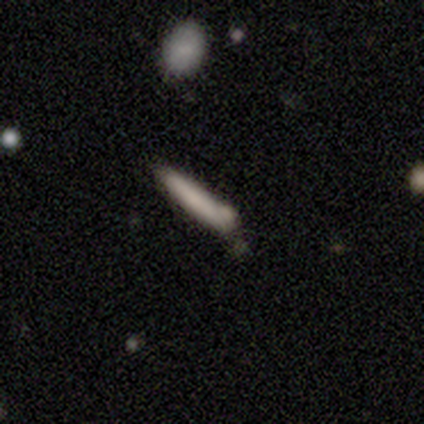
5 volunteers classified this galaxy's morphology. smooth 100%, featured or disk 0%, star or artifact 0%. Down the decision tree: how rounded — cigar-shaped (80%); merging — none (40%, tied with minor disturbance).